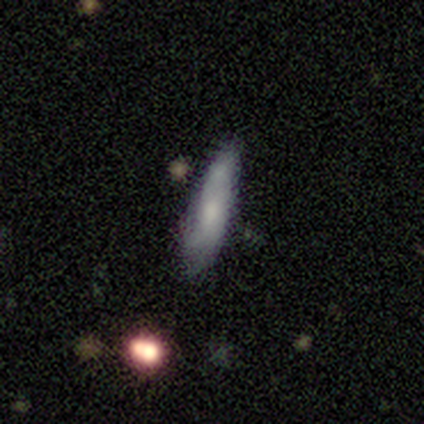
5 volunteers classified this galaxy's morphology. A smooth galaxy with no disk features (80%) that is in between round and cigar-shaped (50%, tied with cigar-shaped). Merging: none (60%).